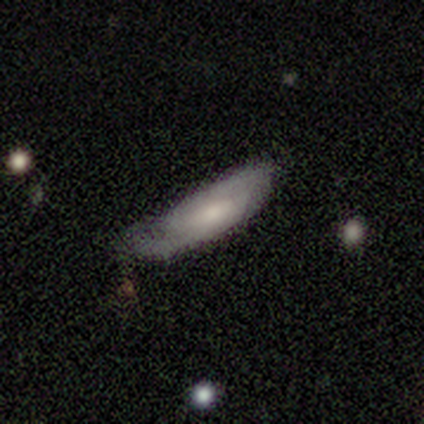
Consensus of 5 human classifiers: Smooth or featured: featured or disk — 60% (smooth — 40%)
Edge-on disk: no — 67% (yes — 33%)
Bar: weak — 50% (tied with no — 50%)
Spiral arms: yes — 100%
Spiral winding: tight — 100%
Spiral arm count: 1 — 50% (tied with 2 — 50%)
Bulge size: moderate — 50% (tied with small — 50%)
Merging: minor disturbance — 60% (none — 40%)